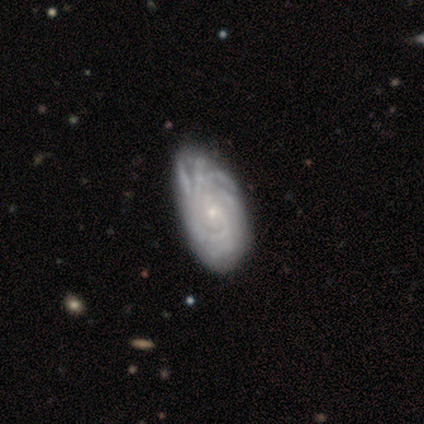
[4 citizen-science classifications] This appears to be a featured or disk galaxy (100%) with no bar (75%), tight (67%) spiral arms (75%) and a small central bulge (100%). Merging: none (50%, tied with minor disturbance).